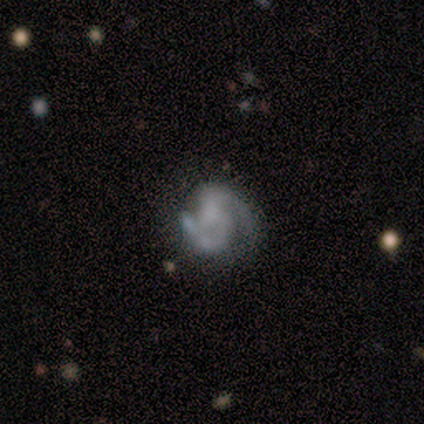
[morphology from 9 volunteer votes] Volunteers were most divided on "bulge size": none: 43%, moderate: 29%, small: 29%, dominant: 0%, large: 0%. More confident: spiral arm count — 2 (100%); smooth or featured — featured or disk (89%); edge-on disk — no (88%); bar — no (71%); spiral arms — yes (71%); merging — none (67%); spiral winding — tight (60%).